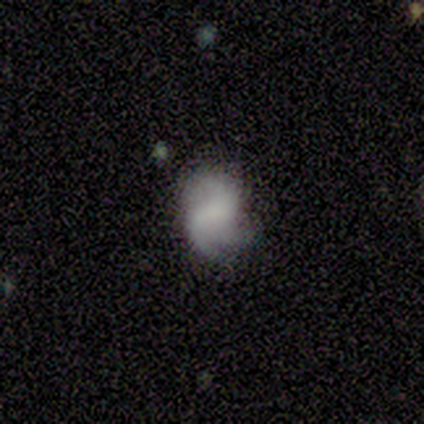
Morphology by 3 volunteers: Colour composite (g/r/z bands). It shows a featured or disk galaxy (67%) with a weak bar (50%, tied with no), 2 (100%) tight (50%, tied with medium) spiral arms (100%) and no central bulge (100%). Merging: major disturbance (67%).